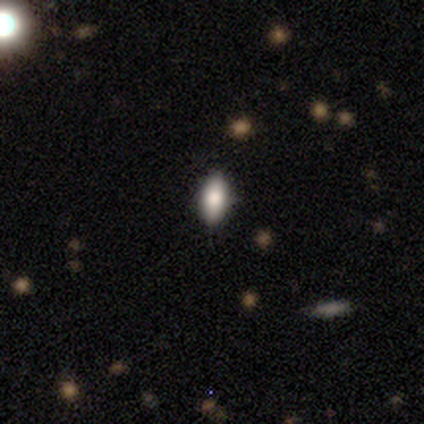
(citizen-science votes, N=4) Smooth or featured?
  - smooth: 75% *
  - star or artifact: 25%
  - featured or disk: 0%
How rounded?
  - in between: 100% *
  - round: 0%
  - cigar-shaped: 0%
Merging?
  - none: 100% *
  - minor disturbance: 0%
  - major disturbance: 0%
  - merger: 0%